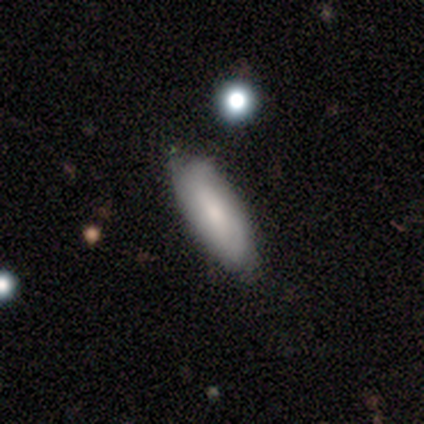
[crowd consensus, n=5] This appears to be a smooth galaxy with no disk features (80%) that is cigar-shaped (75%). Merging: none (80%).